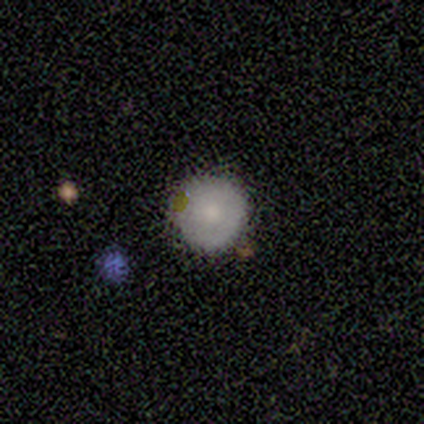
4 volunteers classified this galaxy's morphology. smooth-or-featured: smooth: 75% | star or artifact: 25% | featured or disk: 0%
  how-rounded: round: 100% | in between: 0% | cigar-shaped: 0%
  merging: none: 100% | minor disturbance: 0% | major disturbance: 0% | merger: 0%